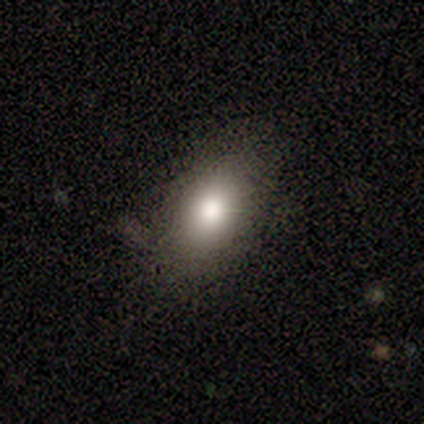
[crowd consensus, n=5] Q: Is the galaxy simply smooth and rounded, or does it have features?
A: smooth — 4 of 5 (80%).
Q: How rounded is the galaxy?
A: in between — 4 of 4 (100%).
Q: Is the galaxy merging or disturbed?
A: none — 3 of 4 (75%).